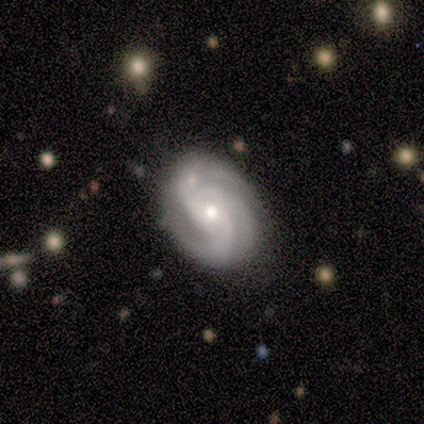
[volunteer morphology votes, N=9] smooth_or_featured: featured or disk (p=0.89) [alt: smooth p=0.11]
disk_edge_on: no (p=1.00)
bar: no (p=0.75) [alt: weak p=0.25]
has_spiral_arms: yes (p=1.00)
spiral_winding: tight (p=0.50) [tied with: medium p=0.50]
spiral_arm_count: 3 (p=0.75) [alt: can't tell p=0.25]
bulge_size: moderate (p=1.00)
merging: none (p=0.89) [alt: minor disturbance p=0.11]